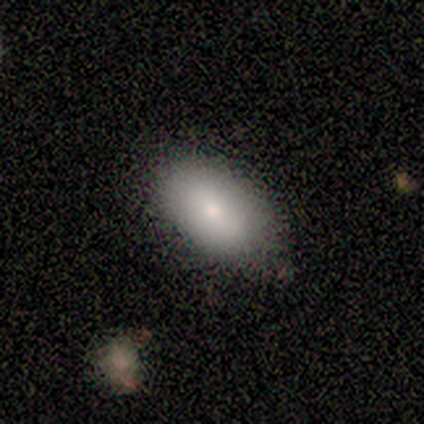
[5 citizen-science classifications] Smooth or featured: smooth — 60% (featured or disk — 20%)
How rounded: in between — 67% (round — 33%)
Merging: none — 75% (major disturbance — 25%)